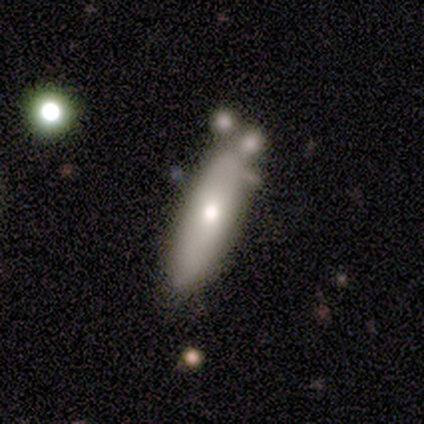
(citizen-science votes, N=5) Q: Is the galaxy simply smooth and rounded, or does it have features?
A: featured or disk — 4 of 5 (80%).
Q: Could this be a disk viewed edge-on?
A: no — 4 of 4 (100%).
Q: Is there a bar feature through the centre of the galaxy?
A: no — 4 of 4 (100%).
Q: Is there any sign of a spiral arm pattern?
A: yes — 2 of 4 (50%, tied with no).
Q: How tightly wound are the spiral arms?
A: medium — 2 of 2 (100%).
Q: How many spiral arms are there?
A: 2 — 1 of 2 (50%, tied with 4).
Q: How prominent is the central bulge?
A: moderate — 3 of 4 (75%).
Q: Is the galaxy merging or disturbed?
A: none — 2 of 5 (40%, tied with minor disturbance).